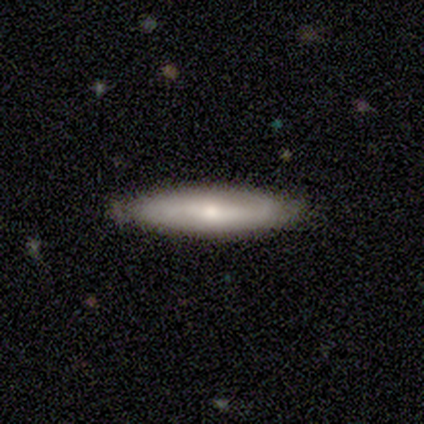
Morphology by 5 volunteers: Smooth or featured? 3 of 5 (60%) said smooth. How rounded? 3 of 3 (100%) said cigar-shaped. Merging? 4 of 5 (80%) said none.